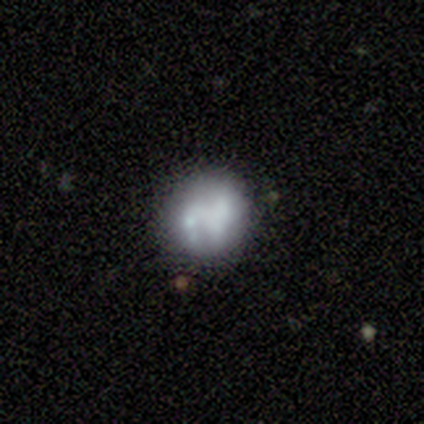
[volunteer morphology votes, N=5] smooth-or-featured: smooth: 60% | featured or disk: 20% | star or artifact: 20%
  how-rounded: round: 100% | in between: 0% | cigar-shaped: 0%
  merging: none: 100% | minor disturbance: 0% | major disturbance: 0% | merger: 0%